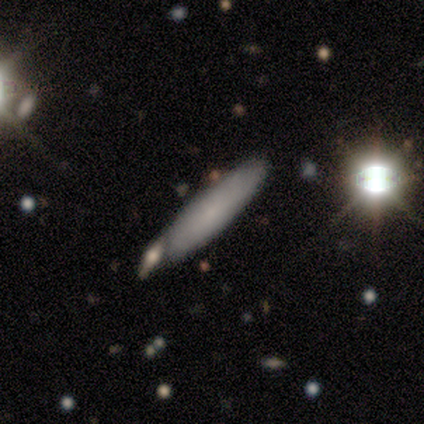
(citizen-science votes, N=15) Morphology: type=smooth (73%); roundness=cigar-shaped (91%); merging=none (69%).